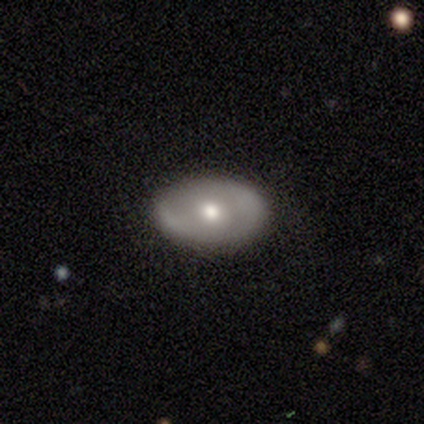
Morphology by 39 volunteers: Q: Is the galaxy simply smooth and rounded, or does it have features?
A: featured or disk — 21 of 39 (54%).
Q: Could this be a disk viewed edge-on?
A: no — 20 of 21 (95%).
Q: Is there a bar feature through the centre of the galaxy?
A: no — 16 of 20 (80%).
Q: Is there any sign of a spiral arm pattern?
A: no — 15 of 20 (75%).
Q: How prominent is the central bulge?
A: moderate — 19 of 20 (95%).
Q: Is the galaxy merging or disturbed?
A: none — 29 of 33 (88%).